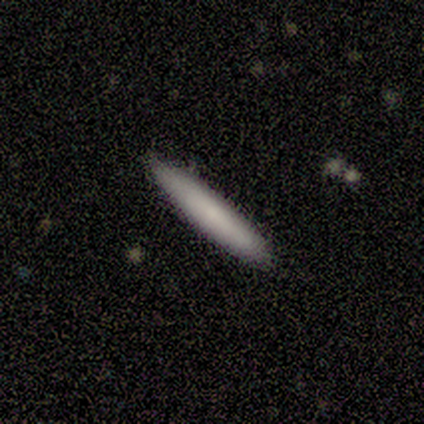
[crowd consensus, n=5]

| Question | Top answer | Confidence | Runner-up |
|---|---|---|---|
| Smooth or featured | smooth | 60% | featured or disk (20%) |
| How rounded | cigar-shaped | 100% | — |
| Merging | none | 75% | minor disturbance (25%) |